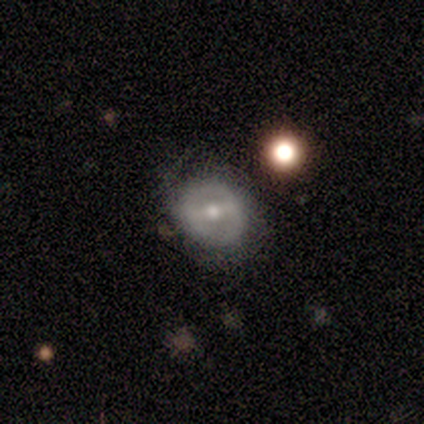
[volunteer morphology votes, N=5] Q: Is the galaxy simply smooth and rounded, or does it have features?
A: featured or disk — 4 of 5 (80%).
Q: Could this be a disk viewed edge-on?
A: no — 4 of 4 (100%).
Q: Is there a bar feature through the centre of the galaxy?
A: strong — 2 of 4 (50%, tied with weak).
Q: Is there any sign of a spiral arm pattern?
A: no — 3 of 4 (75%).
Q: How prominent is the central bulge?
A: moderate — 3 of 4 (75%).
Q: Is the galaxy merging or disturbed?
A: none — 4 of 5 (80%).